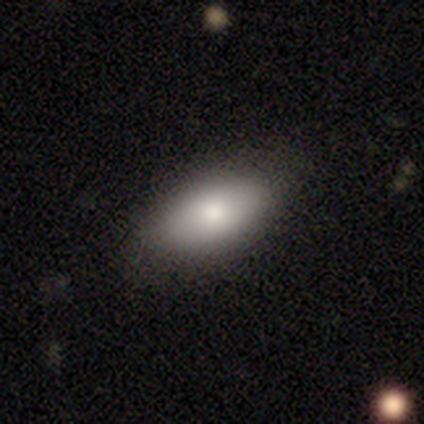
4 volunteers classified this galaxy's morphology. Overall: smooth (100%). How rounded: in between (100%). Merging: none (100%).